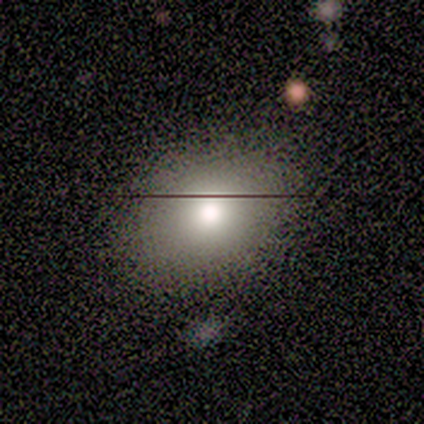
Volunteers were most divided on "edge-on bulge" (2-way tie): none: 50%, rounded: 50%, boxy: 0%. More confident: merging — none (100%); edge-on disk — yes (67%); smooth or featured — featured or disk (60%).